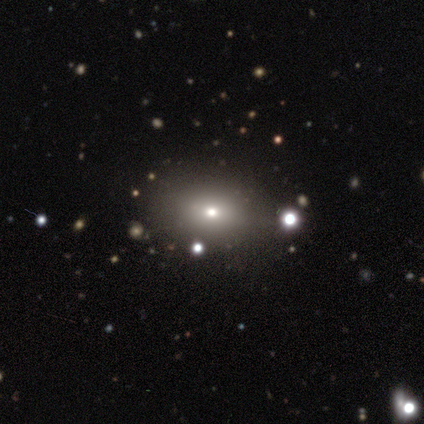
This appears to be a smooth galaxy with no disk features (100%) that is round (50%). Merging: none (100%).